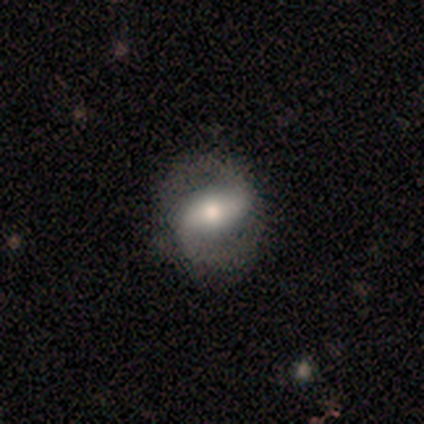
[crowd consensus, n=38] Smooth or featured?
  - featured or disk: 76% *
  - smooth: 24%
  - star or artifact: 0%
Edge-on disk?
  - no: 100% *
  - yes: 0%
Bar?
  - strong: 48% *
  - weak: 41%
  - no: 10%
Spiral arms?
  - yes: 93% *
  - no: 7%
Spiral winding?
  - medium: 48% *
  - loose: 37%
  - tight: 15%
Spiral arm count?
  - 2: 93% *
  - 1: 7%
  - 3: 0%
  - 4: 0%
  - more than 4: 0%
  - can't tell: 0%
Bulge size?
  - moderate: 72% *
  - small: 21%
  - large: 7%
  - dominant: 0%
  - none: 0%
Merging?
  - none: 84% *
  - minor disturbance: 8%
  - major disturbance: 5%
  - merger: 3%